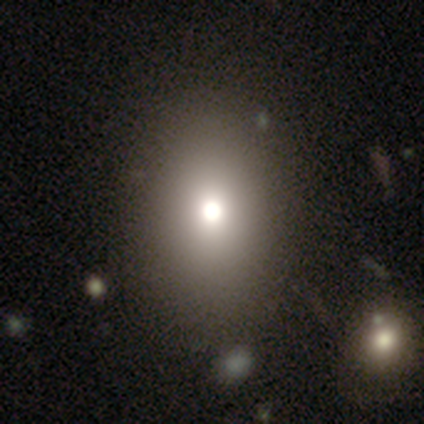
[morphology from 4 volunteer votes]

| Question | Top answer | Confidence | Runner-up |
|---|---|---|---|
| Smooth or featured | featured or disk | 50% | smooth (25%) |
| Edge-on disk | no | 100% | — |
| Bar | no | 100% | — |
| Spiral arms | no | 100% | — |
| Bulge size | moderate | 100% | — |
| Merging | none | 100% | — |